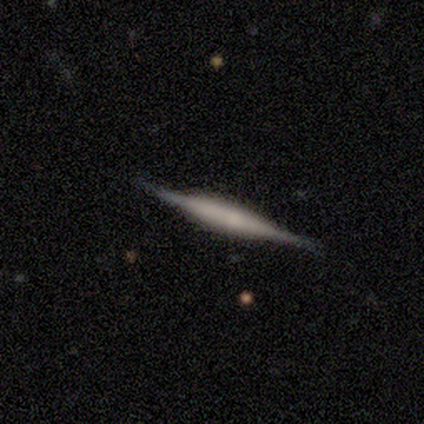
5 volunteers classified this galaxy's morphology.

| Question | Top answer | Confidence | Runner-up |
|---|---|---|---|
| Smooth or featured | featured or disk | 100% | — |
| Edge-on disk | yes | 100% | — |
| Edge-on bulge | boxy | 60% | rounded (40%) |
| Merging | none | 100% | — |